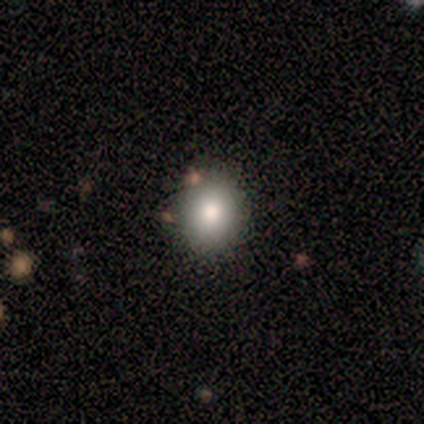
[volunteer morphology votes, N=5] type=smooth (100%); roundness=round (60%); merging=none (60%).